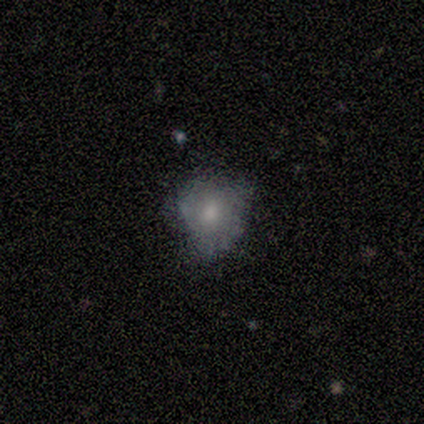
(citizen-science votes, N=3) A smooth galaxy with no disk features (100%) that is round (100%). Merging: minor disturbance (100%).